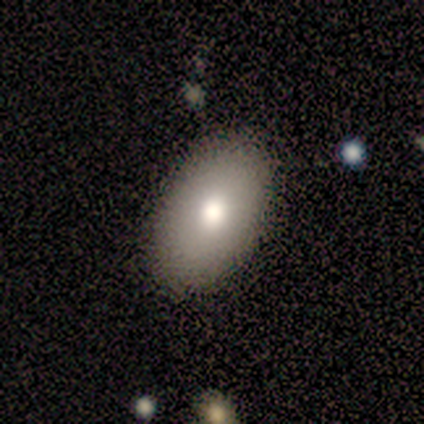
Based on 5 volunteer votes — smooth_or_featured: smooth (p=0.80) [alt: featured or disk p=0.20]
how_rounded: in between (p=0.75) [alt: round p=0.25]
merging: none (p=1.00)